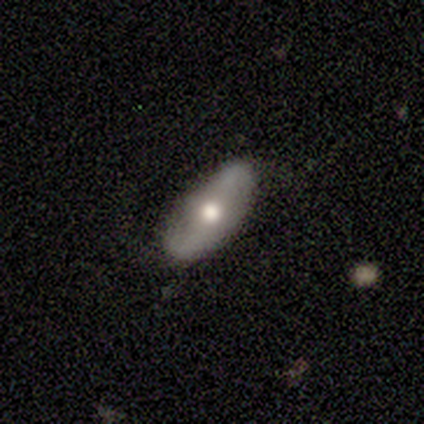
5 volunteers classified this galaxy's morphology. Q: Smooth or featured?
A: featured or disk (100%)
Q: Edge-on disk?
A: no (100%)
Q: Bar?
A: no (60%); runner-up: weak (40%)
Q: Spiral arms?
A: yes (80%); runner-up: no (20%)
Q: Spiral winding?
A: loose (75%); runner-up: tight (25%)
Q: Spiral arm count?
A: 2 (75%); runner-up: can't tell (25%)
Q: Bulge size?
A: moderate (80%); runner-up: large (20%)
Q: Merging?
A: none (100%)